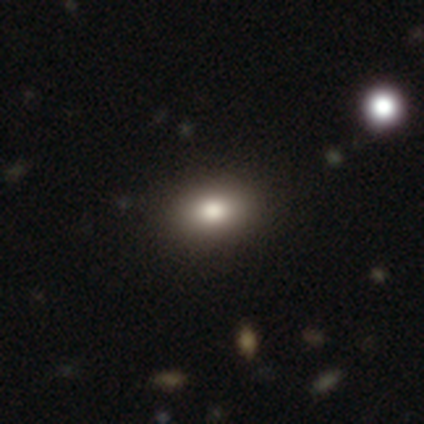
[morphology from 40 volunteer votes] Q: Smooth or featured?
A: smooth (78%); runner-up: featured or disk (12%)
Q: How rounded?
A: in between (71%); runner-up: round (26%)
Q: Merging?
A: none (86%); runner-up: minor disturbance (8%)